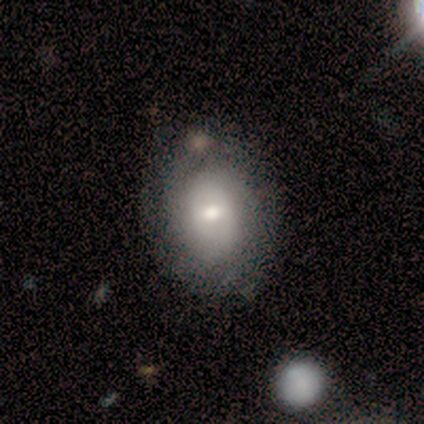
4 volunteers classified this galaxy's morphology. Q: Smooth or featured?
A: featured or disk (75%); runner-up: smooth (25%)
Q: Edge-on disk?
A: no (100%)
Q: Bar?
A: no (67%); runner-up: strong (33%)
Q: Spiral arms?
A: yes (67%); runner-up: no (33%)
Q: Spiral winding?
A: tight (50%); tied with: loose (50%)
Q: Spiral arm count?
A: can't tell (100%)
Q: Bulge size?
A: large (33%); tied with: moderate (33%); small (33%)
Q: Merging?
A: none (50%); runner-up: minor disturbance (25%)